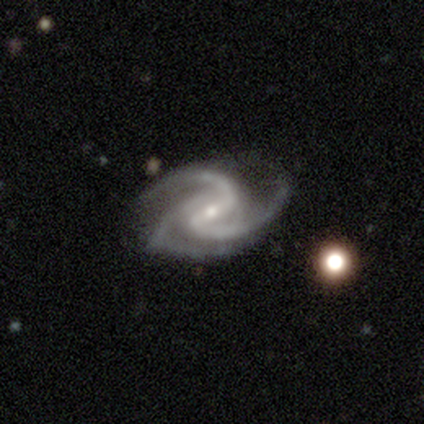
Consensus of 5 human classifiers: Smooth or featured? 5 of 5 (100%) said featured or disk. Edge-on disk? 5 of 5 (100%) said no. Bar? 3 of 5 (60%) said weak. Spiral arms? 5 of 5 (100%) said yes. Spiral winding? 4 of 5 (80%) said medium. Spiral arm count? 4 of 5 (80%) said 3. Bulge size? 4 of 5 (80%) said small. Merging? 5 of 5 (100%) said none.